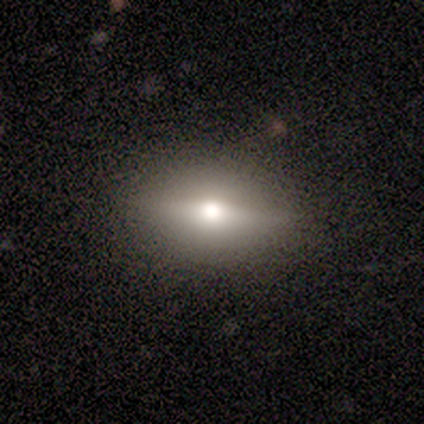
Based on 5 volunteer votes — Smooth or featured? 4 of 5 (80%) said featured or disk. Edge-on disk? 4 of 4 (100%) said yes. Edge-on bulge? 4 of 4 (100%) said rounded. Merging? 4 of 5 (80%) said none.